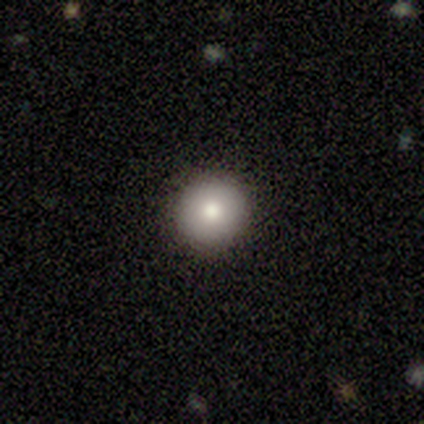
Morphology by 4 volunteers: A smooth galaxy with no disk features (100%) that is round (100%).

Vote fractions:
- Smooth or featured? smooth: 100% / featured or disk: 0% / star or artifact: 0%
- How rounded? round: 100% / in between: 0% / cigar-shaped: 0%
- Merging? none: 100% / minor disturbance: 0% / major disturbance: 0% / merger: 0%